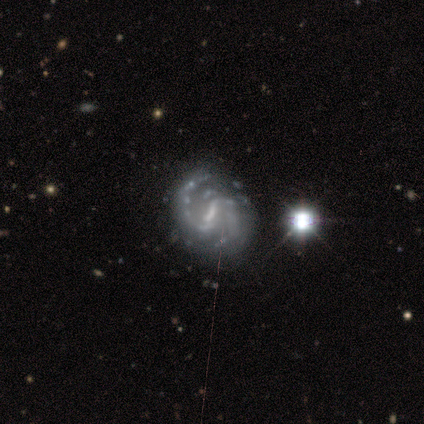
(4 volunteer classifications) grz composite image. It shows a featured or disk galaxy (75%) with a strong bar (100%), 2 (100%) medium (67%) spiral arms (100%) and a small central bulge (67%). Merging: none (67%).